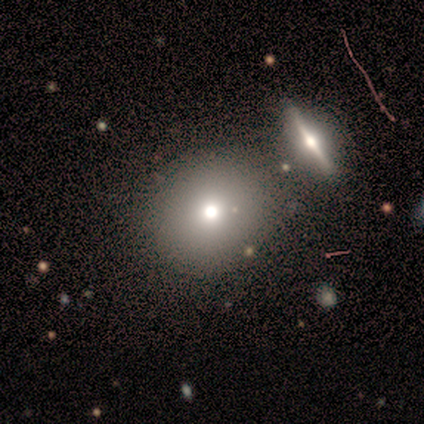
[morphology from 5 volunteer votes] Smooth or featured?
  - smooth: 100% *
  - featured or disk: 0%
  - star or artifact: 0%
How rounded?
  - round: 80% *
  - in between: 20%
  - cigar-shaped: 0%
Merging?
  - none: 80% *
  - minor disturbance: 20%
  - major disturbance: 0%
  - merger: 0%